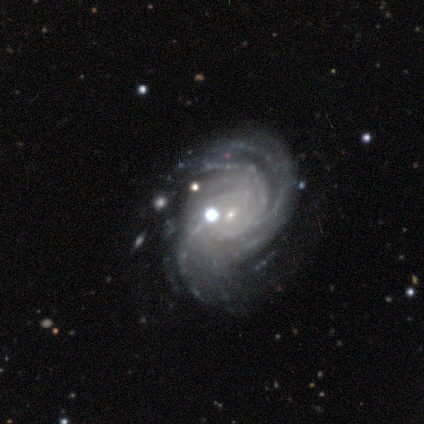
featured or disk 100%, smooth 0%, star or artifact 0%. Down the decision tree: edge-on disk — no (100%); bar — no (60%); spiral arms — yes (100%); spiral arm count — 4 (40%); spiral winding — tight (80%); bulge size — small (100%); merging — none (80%).